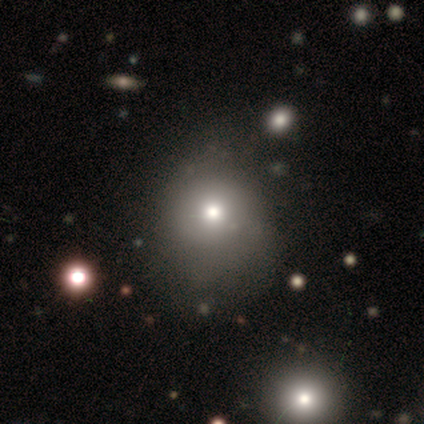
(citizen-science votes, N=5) Overall: smooth (60%; featured or disk 20%). How rounded: round (100%). Merging: minor disturbance (50%; none 25%).